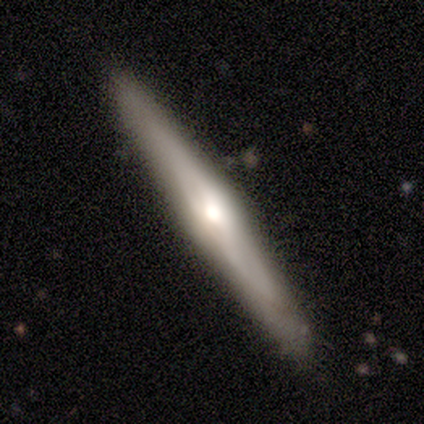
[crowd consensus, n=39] featured or disk 79%, smooth 21%, star or artifact 0%. Down the decision tree: edge-on disk — yes (94%); edge-on bulge — rounded (86%); merging — none (85%).